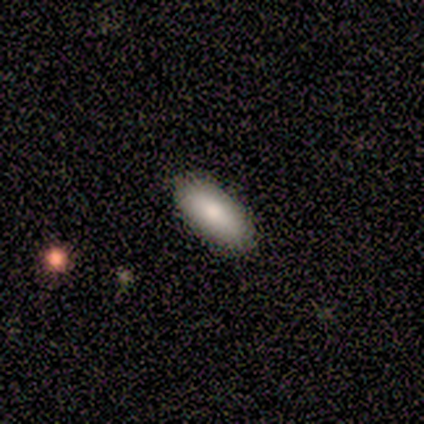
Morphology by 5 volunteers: Overall: smooth (100%). How rounded: in between (100%). Merging: none (80%).